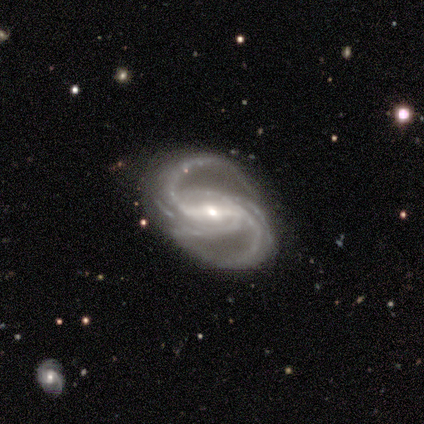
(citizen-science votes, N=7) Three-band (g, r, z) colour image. It shows a featured or disk galaxy (100%) with a strong bar (86%), 4 (33%) medium (50%) spiral arms (86%) and a moderate central bulge (57%). Merging: none (86%).